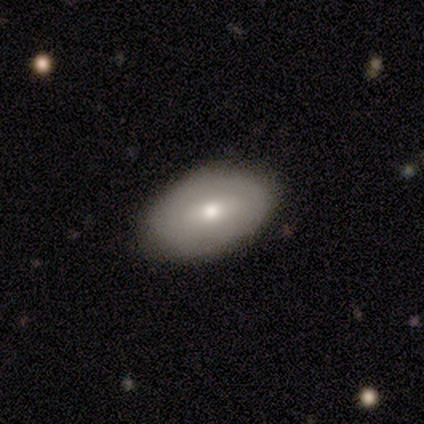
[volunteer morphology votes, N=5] Overall: smooth (60%; featured or disk 40%). How rounded: in between (100%). Merging: none (80%).